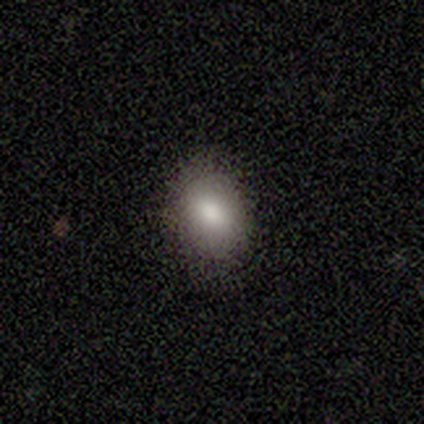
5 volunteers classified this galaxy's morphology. smooth-or-featured: smooth: 100% | featured or disk: 0% | star or artifact: 0%
  how-rounded: in between: 100% | round: 0% | cigar-shaped: 0%
  merging: none: 80% | minor disturbance: 20% | major disturbance: 0% | merger: 0%